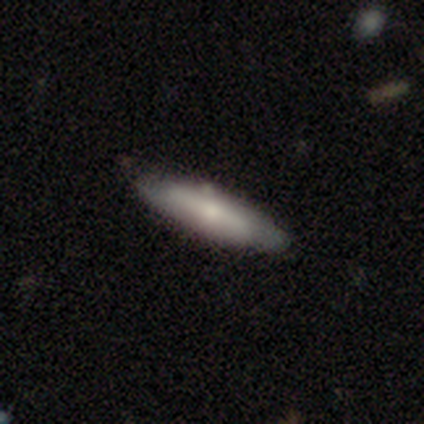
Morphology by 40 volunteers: This appears to be a smooth galaxy with no disk features (52%) that is cigar-shaped (57%). Merging: none (69%).